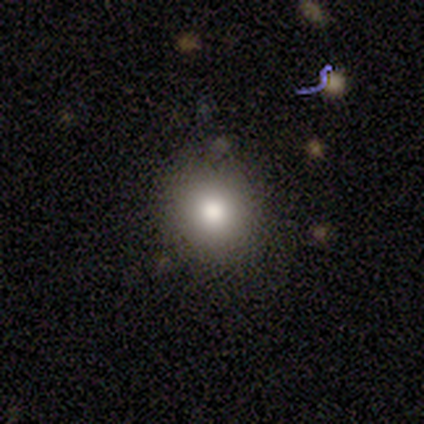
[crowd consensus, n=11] This is likely a smooth galaxy (73%). How rounded: likely round (75%). Merging: clearly none (100%).